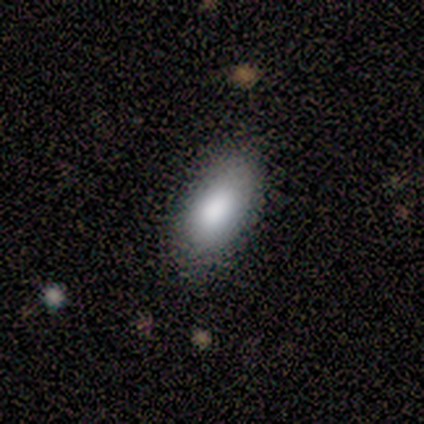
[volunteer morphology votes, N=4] Smooth or featured? 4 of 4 (100%) said smooth. How rounded? 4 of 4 (100%) said in between. Merging? 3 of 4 (75%) said none.